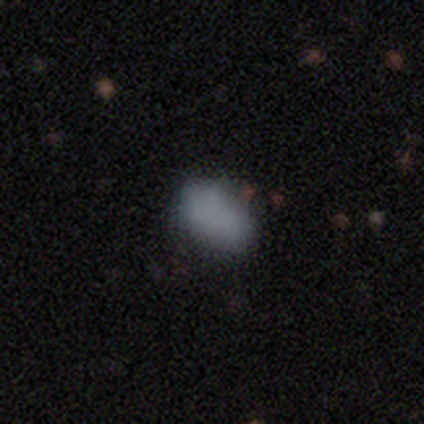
This is clearly a smooth galaxy (100%). How rounded: clearly in between (100%). Merging: likely minor disturbance (60%).